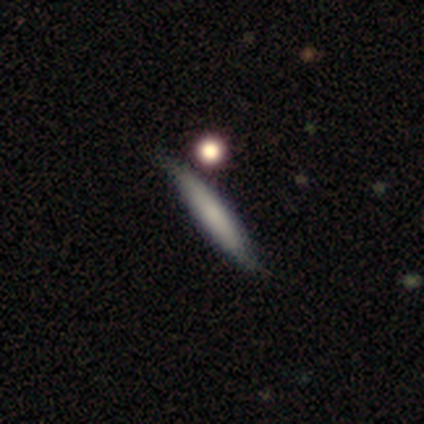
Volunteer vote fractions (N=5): Overall: smooth (80%). How rounded: cigar-shaped (100%). Merging: none (80%).